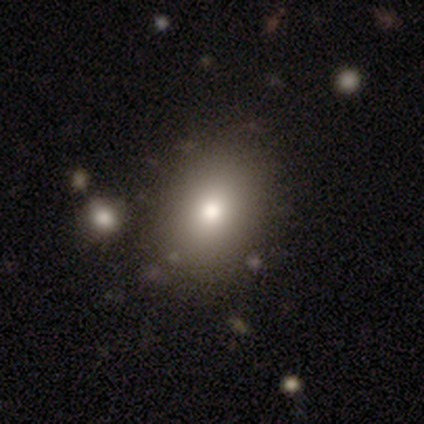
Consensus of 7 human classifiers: smooth-or-featured: smooth: 86% | star or artifact: 14% | featured or disk: 0%
  how-rounded: in between: 83% | round: 17% | cigar-shaped: 0%
  merging: none: 83% | minor disturbance: 17% | major disturbance: 0% | merger: 0%